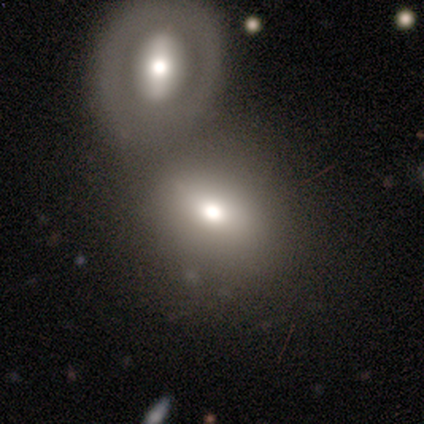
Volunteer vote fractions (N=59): smooth 76%, featured or disk 17%, star or artifact 7%. Down the decision tree: how rounded — in between (71%); merging — merger (67%).